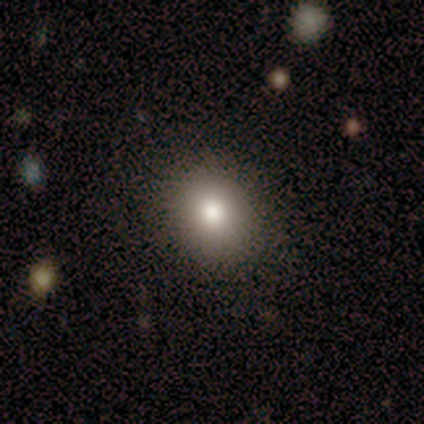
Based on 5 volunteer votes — Smooth or featured? 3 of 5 (60%) said smooth. How rounded? 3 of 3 (100%) said round. Merging? 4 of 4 (100%) said none.